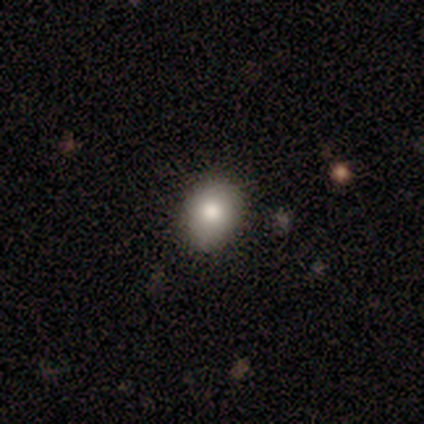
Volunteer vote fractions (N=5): Smooth or featured: smooth — 60% (star or artifact — 40%)
How rounded: round — 67% (in between — 33%)
Merging: none — 67% (major disturbance — 33%)